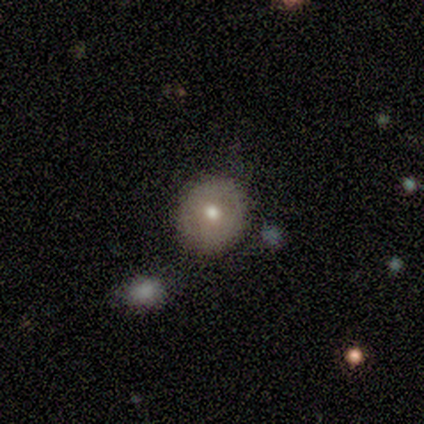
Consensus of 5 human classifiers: smooth 80%, featured or disk 20%, star or artifact 0%. Down the decision tree: how rounded — round (100%); merging — none (40%, tied with minor disturbance).